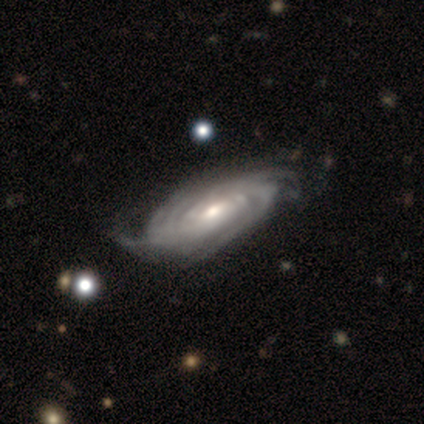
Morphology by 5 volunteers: type=featured or disk (100%); edge-on=no (100%); bar=weak (40%, tied with no); spiral arms=yes (100%); winding=tight (60%); arm count=can't tell (60%); bulge=moderate (40%, tied with small); merging=none (40%, tied with minor disturbance).